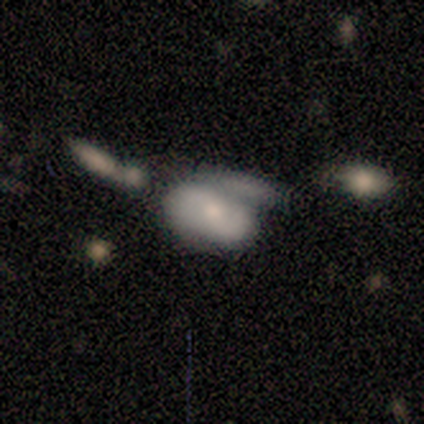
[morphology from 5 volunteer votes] Q: Smooth or featured?
A: smooth (40%); tied with: featured or disk (40%)
Q: How rounded?
A: in between (100%)
Q: Merging?
A: merger (50%); runner-up: none (25%)